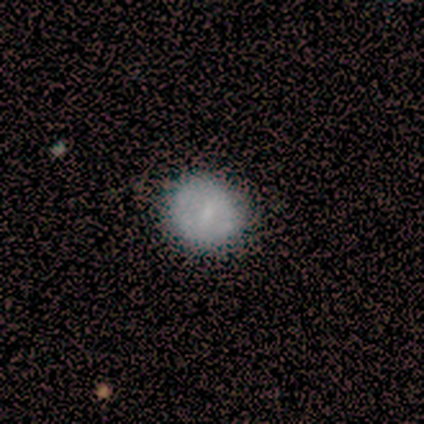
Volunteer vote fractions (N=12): Smooth or featured? smooth (75%)
How rounded? round (89%)
Merging? none (82%)